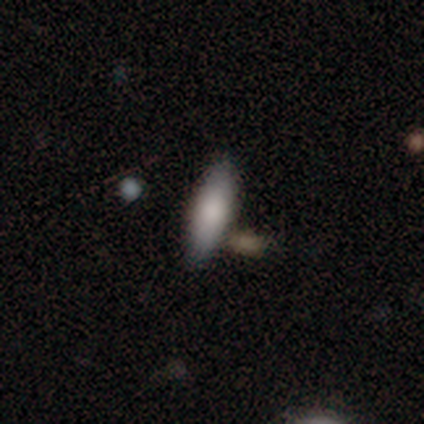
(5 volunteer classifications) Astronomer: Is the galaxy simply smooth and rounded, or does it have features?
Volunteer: smooth — 60%.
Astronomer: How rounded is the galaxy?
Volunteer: cigar-shaped — 100%.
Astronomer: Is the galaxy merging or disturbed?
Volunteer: none — 75%.